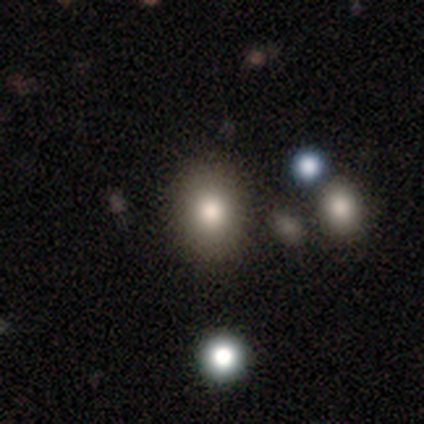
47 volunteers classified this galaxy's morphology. Q: Smooth or featured?
A: smooth (83%); runner-up: star or artifact (13%)
Q: How rounded?
A: round (62%); runner-up: in between (38%)
Q: Merging?
A: none (76%); runner-up: minor disturbance (20%)